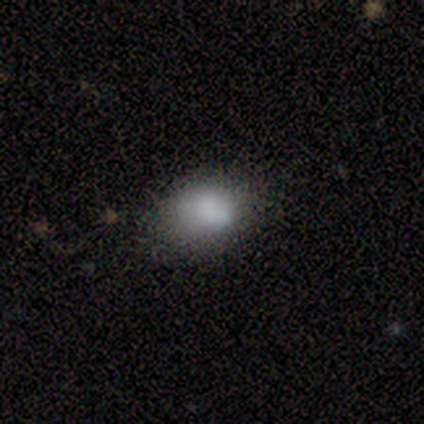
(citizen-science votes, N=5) Morphology: type=smooth (100%); roundness=in between (60%); merging=none (80%).